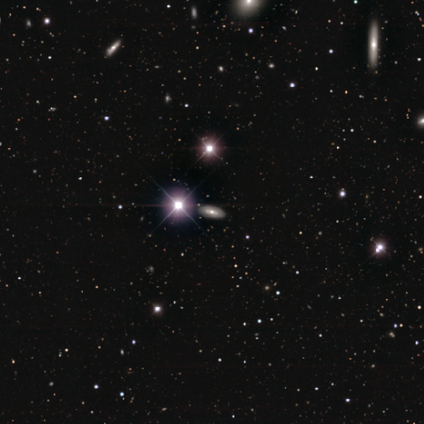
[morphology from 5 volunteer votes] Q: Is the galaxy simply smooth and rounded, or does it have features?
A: smooth — 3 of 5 (60%).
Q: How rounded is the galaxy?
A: in between — 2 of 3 (67%).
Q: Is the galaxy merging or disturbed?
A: none — 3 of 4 (75%).